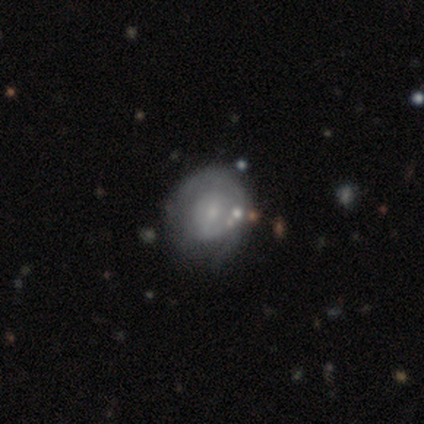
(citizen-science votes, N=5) smooth-or-featured: featured or disk: 60% | smooth: 40% | star or artifact: 0%
  disk-edge-on: no: 100% | yes: 0%
    bar: strong: 33% (tied) | weak: 33% (tied) | no: 33% (tied)
    has-spiral-arms: yes: 100% | no: 0%
      spiral-winding: tight: 100% | medium: 0% | loose: 0%
      spiral-arm-count: 1: 33% (tied) | 2: 33% (tied) | can't tell: 33% (tied) | 3: 0% | 4: 0% | more than 4: 0%
    bulge-size: large: 33% (tied) | moderate: 33% (tied) | small: 33% (tied) | dominant: 0% | none: 0%
  merging: minor disturbance: 60% | none: 40% | major disturbance: 0% | merger: 0%